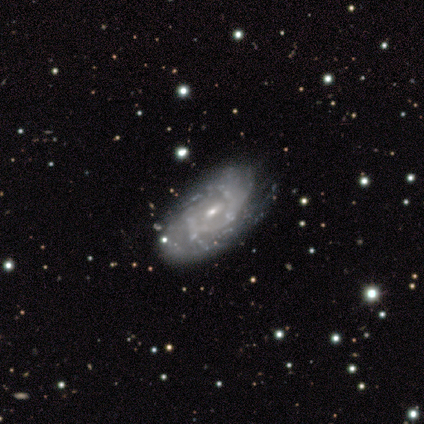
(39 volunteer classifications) smooth-or-featured: featured or disk: 77% | smooth: 13% | star or artifact: 10%
  disk-edge-on: no: 87% | yes: 13%
    bar: no: 62% | weak: 35% | strong: 4%
    has-spiral-arms: yes: 69% | no: 31%
      spiral-winding: tight: 67% | medium: 33% | loose: 0%
      spiral-arm-count: can't tell: 50% | 2: 28% | 4: 17% | 3: 6% | 1: 0% | more than 4: 0%
    bulge-size: small: 81% | moderate: 19% | dominant: 0% | large: 0% | none: 0%
  merging: none: 57% | minor disturbance: 34% | merger: 6% | major disturbance: 3%